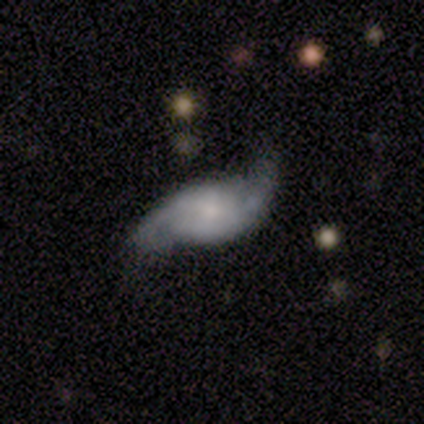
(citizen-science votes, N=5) Smooth or featured? 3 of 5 (60%) said featured or disk. Edge-on disk? 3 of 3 (100%) said no. Bar? 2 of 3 (67%) said no. Spiral arms? 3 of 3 (100%) said yes. Spiral winding? 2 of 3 (67%) said loose. Spiral arm count? 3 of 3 (100%) said 2. Bulge size? 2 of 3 (67%) said small. Merging? 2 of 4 (50%) said none.